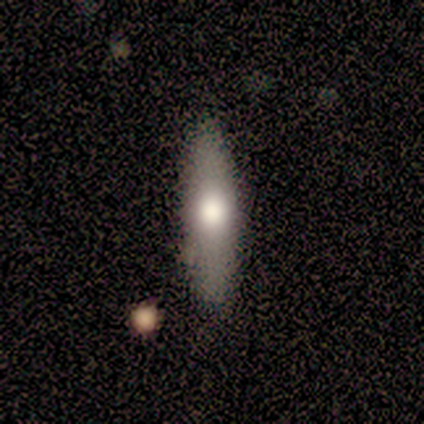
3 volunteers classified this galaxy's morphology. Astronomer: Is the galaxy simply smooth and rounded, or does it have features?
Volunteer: smooth — 67%.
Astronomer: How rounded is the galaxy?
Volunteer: in between — 50%, tied with cigar-shaped at 50%.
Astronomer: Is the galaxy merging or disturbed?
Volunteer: none — 100%.